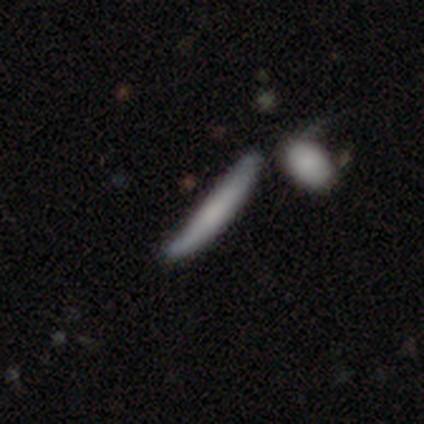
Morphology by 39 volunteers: Smooth or featured: smooth — 64% (featured or disk — 31%)
How rounded: cigar-shaped — 92% (in between — 8%)
Merging: none — 35% (tied with minor disturbance — 35%)